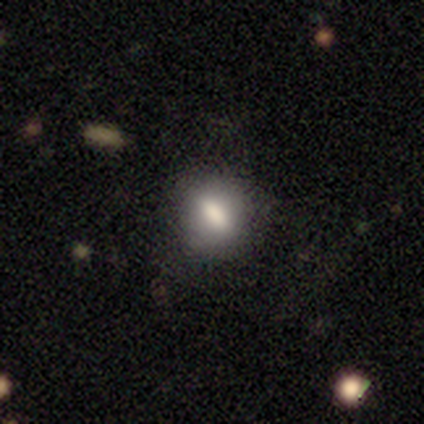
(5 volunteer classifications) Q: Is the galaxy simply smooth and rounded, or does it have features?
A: smooth — 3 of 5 (60%).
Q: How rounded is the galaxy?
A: in between — 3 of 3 (100%).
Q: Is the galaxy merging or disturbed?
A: none — 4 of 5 (80%).